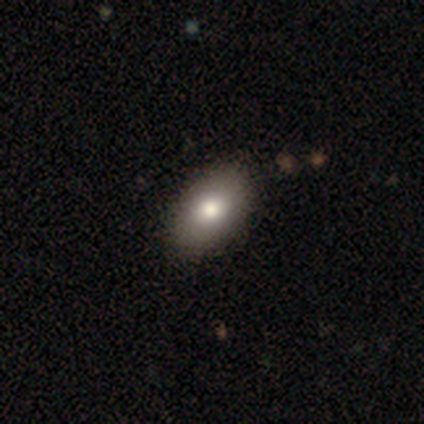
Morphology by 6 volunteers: type=smooth (83%); roundness=in between (100%); merging=none (83%).